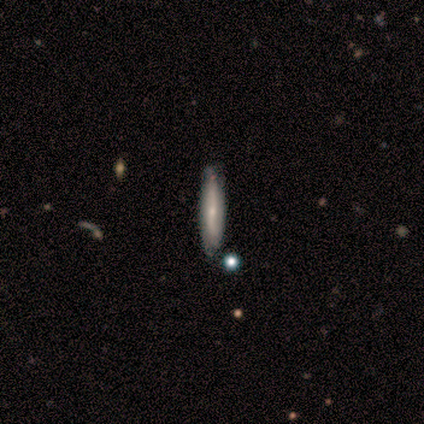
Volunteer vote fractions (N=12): smooth_or_featured: featured or disk (p=0.92) [alt: smooth p=0.08]
disk_edge_on: yes (p=0.55) [alt: no p=0.45]
edge_on_bulge: rounded (p=0.67) [alt: none p=0.33]
merging: none (p=0.83) [alt: minor disturbance p=0.17]